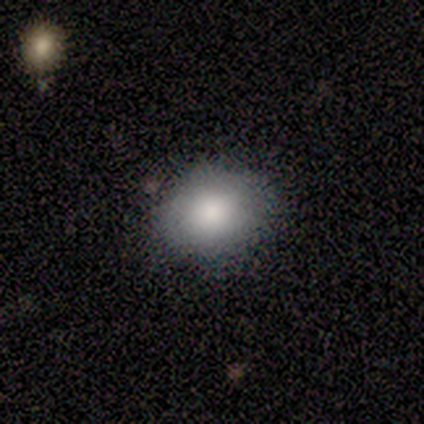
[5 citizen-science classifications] smooth-or-featured: smooth: 100% | featured or disk: 0% | star or artifact: 0%
  how-rounded: in between: 60% | round: 40% | cigar-shaped: 0%
  merging: none: 80% | major disturbance: 20% | minor disturbance: 0% | merger: 0%